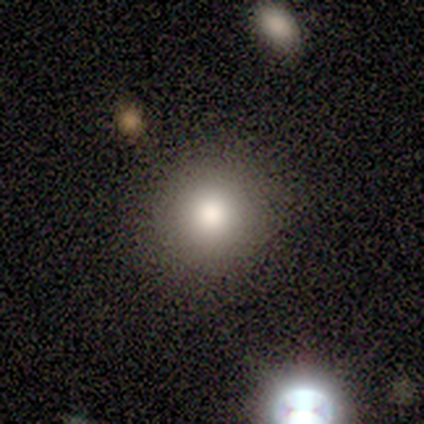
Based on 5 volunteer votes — A smooth galaxy with no disk features (80%) that is round (100%).

Vote fractions:
- Smooth or featured? smooth: 80% / featured or disk: 20% / star or artifact: 0%
- How rounded? round: 100% / in between: 0% / cigar-shaped: 0%
- Merging? none: 100% / minor disturbance: 0% / major disturbance: 0% / merger: 0%